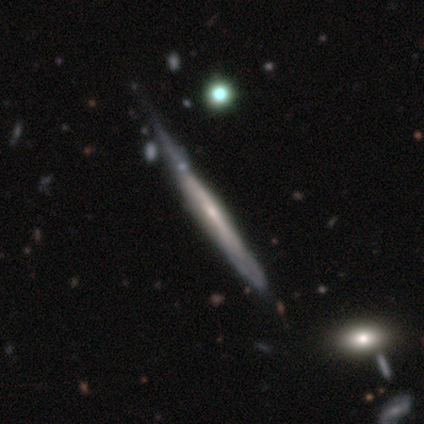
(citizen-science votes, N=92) Smooth or featured? 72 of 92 (78%) said featured or disk. Edge-on disk? 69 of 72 (96%) said yes. Edge-on bulge? 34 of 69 (49%) said none. Merging? 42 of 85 (49%) said none.